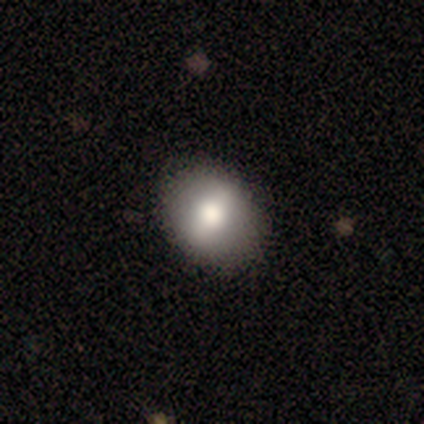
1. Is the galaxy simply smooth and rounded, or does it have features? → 67% smooth, 17% featured or disk, 17% star or artifact.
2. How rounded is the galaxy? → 75% round, 25% in between, 0% cigar-shaped.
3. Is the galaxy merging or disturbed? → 80% none, 20% minor disturbance, 0% major disturbance, 0% merger.